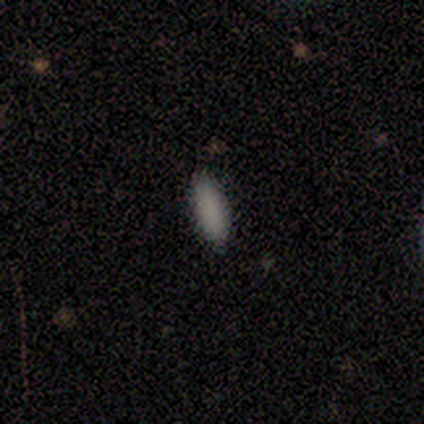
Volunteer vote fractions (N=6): Morphology: type=smooth (100%); roundness=in between (83%); merging=none (67%).